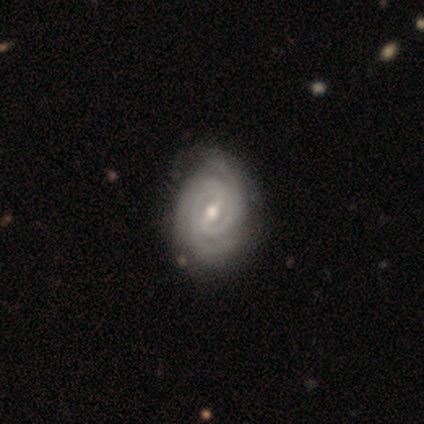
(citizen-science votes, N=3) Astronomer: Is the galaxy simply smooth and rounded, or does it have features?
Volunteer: featured or disk — 67%.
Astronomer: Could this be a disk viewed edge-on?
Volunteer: no — 100%.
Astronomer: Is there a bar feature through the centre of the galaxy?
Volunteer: weak — 100%.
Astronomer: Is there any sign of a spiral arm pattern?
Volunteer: yes — 100%.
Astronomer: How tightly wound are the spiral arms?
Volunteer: tight — 100%.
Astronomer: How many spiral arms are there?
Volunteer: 3 — 50%, tied with can't tell at 50%.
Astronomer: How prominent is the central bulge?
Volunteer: moderate — 100%.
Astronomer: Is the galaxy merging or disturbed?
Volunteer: none — 100%.